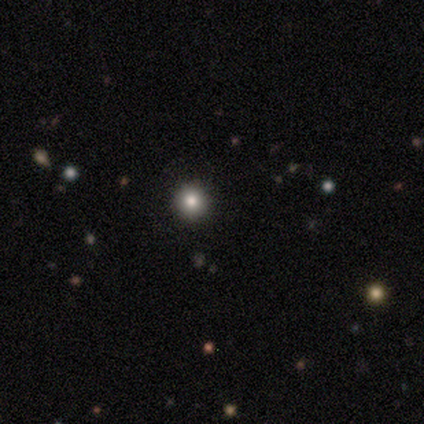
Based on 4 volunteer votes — Volunteers were most divided on "smooth or featured": smooth: 75%, star or artifact: 25%, featured or disk: 0%. More confident: how rounded — round (100%); merging — none (100%).